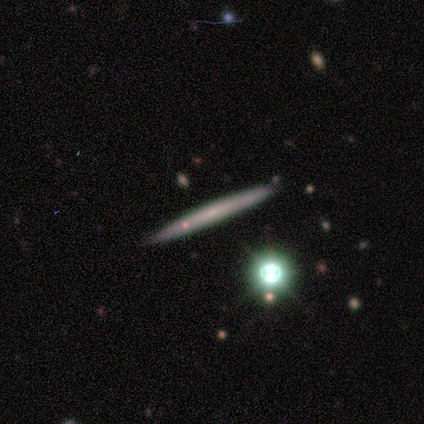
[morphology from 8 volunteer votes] type=featured or disk (62%); edge-on=yes (100%); edge-on bulge=none (60%); merging=none (71%).